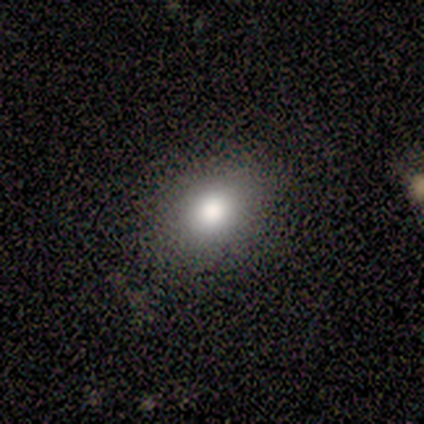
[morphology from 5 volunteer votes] Smooth or featured?
  - smooth: 80% *
  - star or artifact: 20%
  - featured or disk: 0%
How rounded?
  - round: 75% *
  - in between: 25%
  - cigar-shaped: 0%
Merging?
  - none: 75% *
  - minor disturbance: 25%
  - major disturbance: 0%
  - merger: 0%